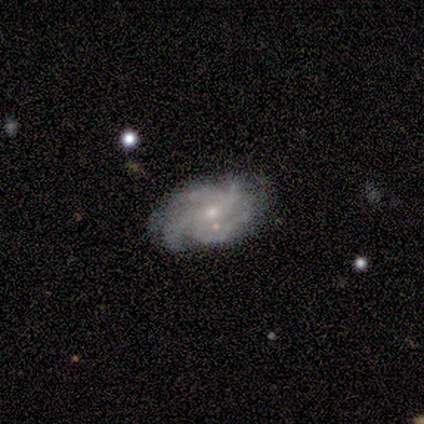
Overall: featured or disk (80%). Edge-on disk: no (100%). Bar: weak (50%, tied with no). Spiral arms: yes (100%). Spiral arm count: 4 (75%). Spiral winding: medium (75%). Bulge size: moderate (50%, tied with small). Merging: none (75%).